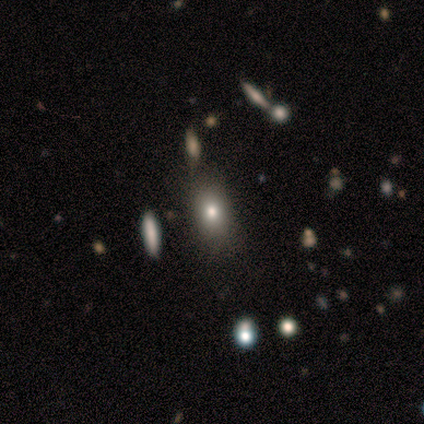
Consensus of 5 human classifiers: Overall: smooth (80%). How rounded: in between (75%). Merging: none (60%; minor disturbance 40%).